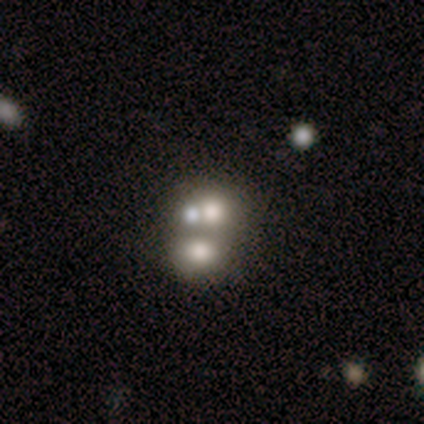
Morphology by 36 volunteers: A smooth galaxy with no disk features (61%) that is round (82%). Merging: merger (70%).